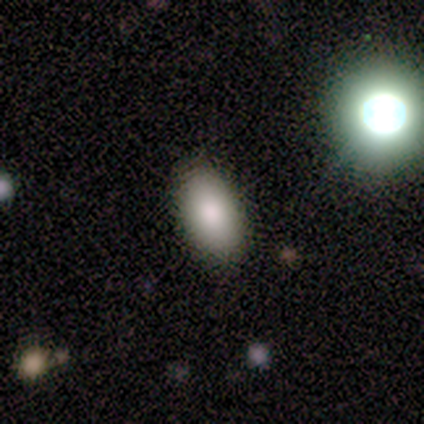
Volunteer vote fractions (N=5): Smooth or featured: smooth — 100%
How rounded: in between — 80% (round — 20%)
Merging: none — 80% (minor disturbance — 20%)